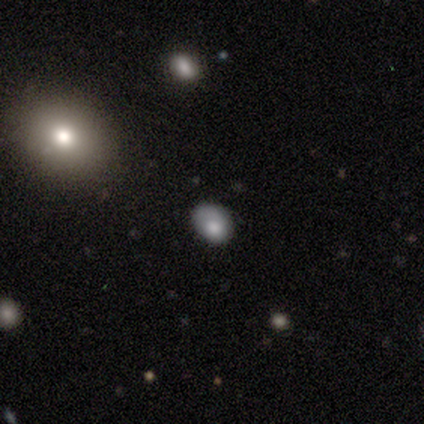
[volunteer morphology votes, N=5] smooth_or_featured: smooth (p=1.00)
how_rounded: in between (p=0.60) [alt: round p=0.40]
merging: minor disturbance (p=0.80) [alt: none p=0.20]